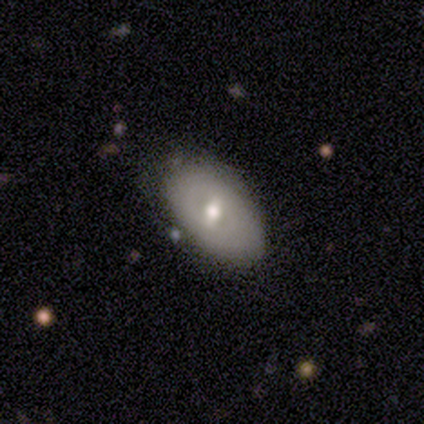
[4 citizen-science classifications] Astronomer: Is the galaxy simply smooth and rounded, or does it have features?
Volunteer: smooth — 100%.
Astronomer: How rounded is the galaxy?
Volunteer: in between — 100%.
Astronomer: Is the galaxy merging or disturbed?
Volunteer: none — 75%.